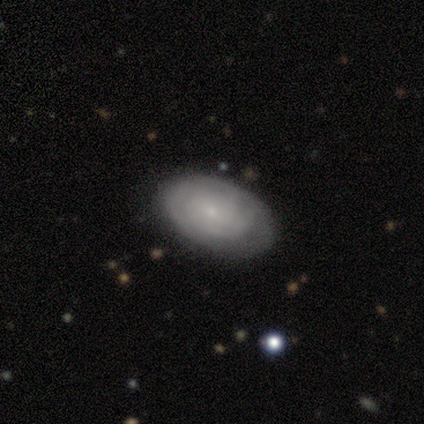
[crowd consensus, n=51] Morphology: type=featured or disk (65%); edge-on=no (94%); bar=no (71%); spiral arms=yes (81%); winding=tight (80%); arm count=can't tell (52%); bulge=small (77%); merging=none (75%).